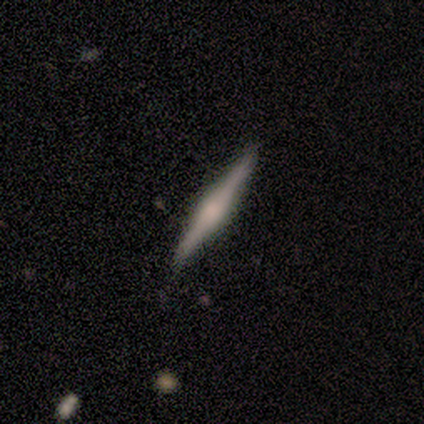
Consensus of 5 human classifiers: Smooth or featured? featured or disk (100%)
Edge-on disk? yes (100%)
Edge-on bulge? rounded (100%)
Merging? none (100%)